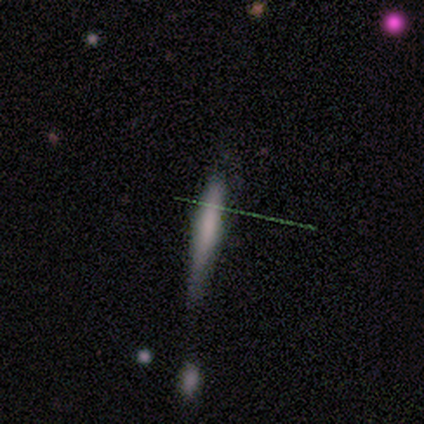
This appears to be a smooth galaxy with no disk features (40%, tied with star or artifact) that is cigar-shaped (100%). Merging: none (100%).